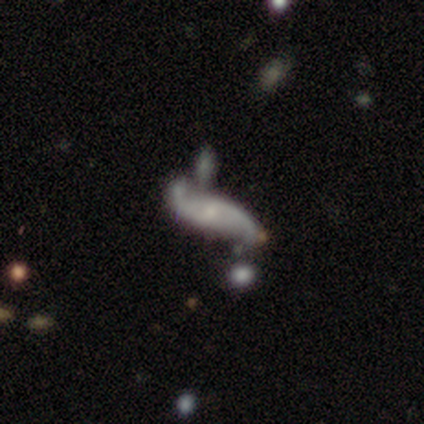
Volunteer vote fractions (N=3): Smooth or featured? featured or disk (100%)
Edge-on disk? no (67%)
Bar? no (100%)
Spiral arms? yes (100%)
Spiral winding? loose (100%)
Spiral arm count? 2 (100%)
Bulge size? small (100%)
Merging? none (67%)